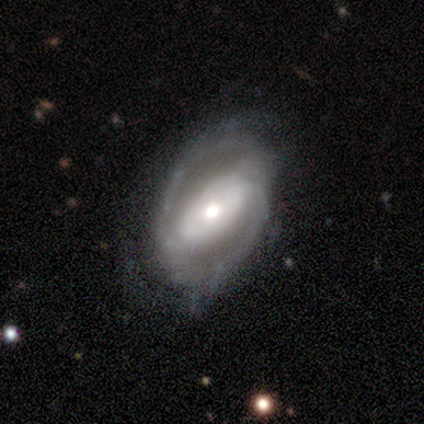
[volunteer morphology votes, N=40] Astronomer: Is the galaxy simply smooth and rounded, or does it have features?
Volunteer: featured or disk — 75%.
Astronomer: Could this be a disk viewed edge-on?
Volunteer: no — 97%.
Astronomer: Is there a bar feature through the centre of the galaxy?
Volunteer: weak — 34%, tied with no at 34%.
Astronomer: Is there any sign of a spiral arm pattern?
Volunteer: yes — 69%.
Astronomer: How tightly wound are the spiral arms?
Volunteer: medium — 40% (runner-up: tight, 30%).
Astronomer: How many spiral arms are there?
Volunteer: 2 — 75%.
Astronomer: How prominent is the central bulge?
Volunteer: moderate — 72%.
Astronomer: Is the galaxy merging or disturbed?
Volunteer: none — 59%.